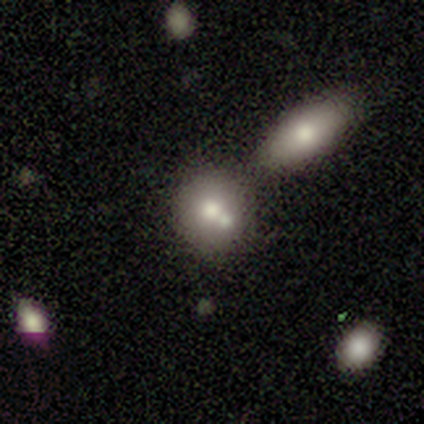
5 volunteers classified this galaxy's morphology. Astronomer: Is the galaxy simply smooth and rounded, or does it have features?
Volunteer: smooth — 60%.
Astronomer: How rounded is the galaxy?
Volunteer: round — 100%.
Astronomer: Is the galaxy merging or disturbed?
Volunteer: none — 50%, tied with merger at 50%.